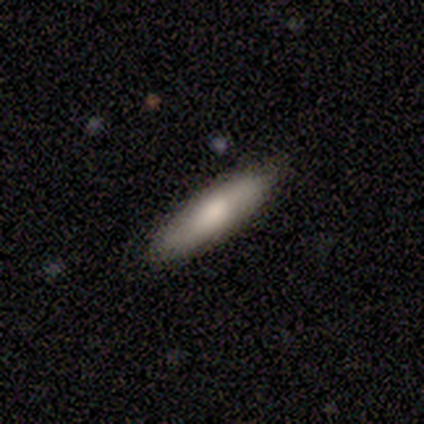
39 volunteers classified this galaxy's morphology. This appears to be a smooth galaxy with no disk features (72%) that is cigar-shaped (75%). Merging: none (91%).